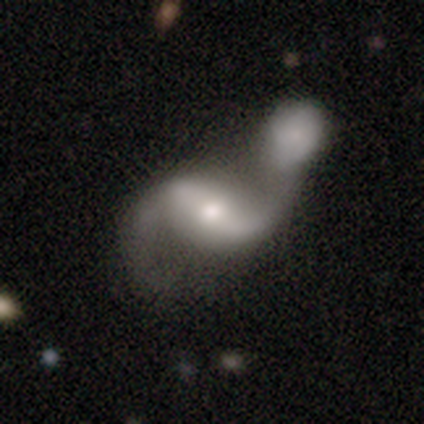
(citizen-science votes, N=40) Smooth or featured?
  - featured or disk: 88% *
  - smooth: 10%
  - star or artifact: 2%
Edge-on disk?
  - no: 94% *
  - yes: 6%
Bar?
  - strong: 42% * (tied)
  - weak: 42% * (tied)
  - no: 15%
Spiral arms?
  - yes: 85% *
  - no: 15%
Spiral winding?
  - loose: 89% *
  - medium: 11%
  - tight: 0%
Spiral arm count?
  - 2: 96% *
  - 1: 4%
  - 3: 0%
  - 4: 0%
  - more than 4: 0%
  - can't tell: 0%
Bulge size?
  - moderate: 48% *
  - small: 30%
  - large: 21%
  - dominant: 0%
  - none: 0%
Merging?
  - merger: 85% *
  - minor disturbance: 8%
  - none: 5%
  - major disturbance: 3%